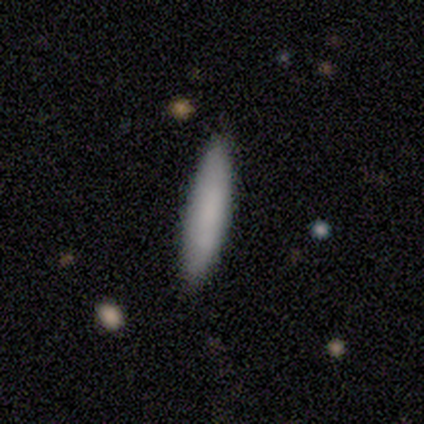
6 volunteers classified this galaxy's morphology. Smooth or featured?
  - smooth: 67% *
  - featured or disk: 17%
  - star or artifact: 17%
How rounded?
  - cigar-shaped: 100% *
  - round: 0%
  - in between: 0%
Merging?
  - none: 100% *
  - minor disturbance: 0%
  - major disturbance: 0%
  - merger: 0%